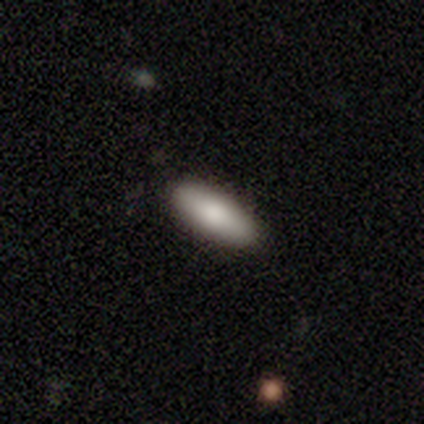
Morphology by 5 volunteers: A smooth galaxy with no disk features (100%) that is in between round and cigar-shaped (80%). Merging: none (100%).